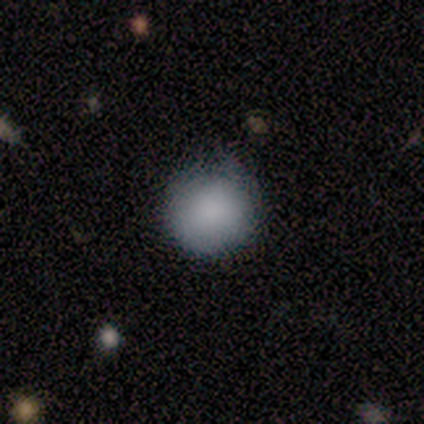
smooth_or_featured: smooth (p=0.50) [alt: featured or disk p=0.25]
how_rounded: round (p=1.00)
merging: none (p=0.67) [alt: major disturbance p=0.33]